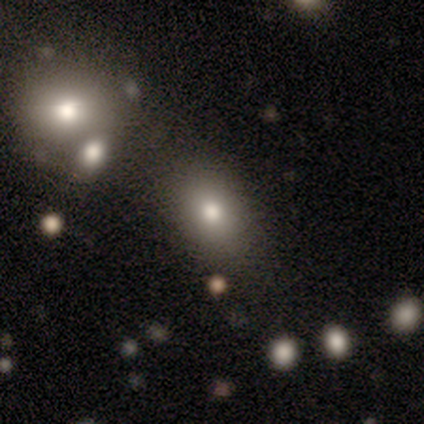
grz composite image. It shows a smooth galaxy with no disk features (33%, tied with featured or disk and star or artifact) that is round (50%, tied with in between). Merging: none (100%).